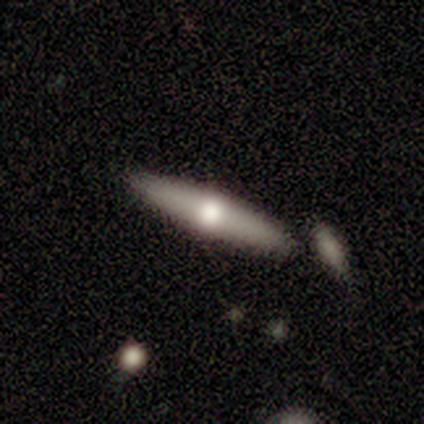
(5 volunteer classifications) This is likely a smooth galaxy (60%). How rounded: clearly cigar-shaped (100%). Merging: clearly none (100%).